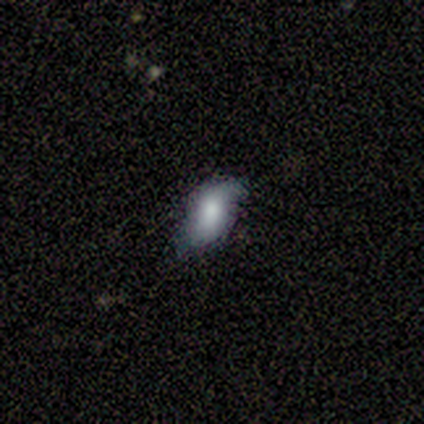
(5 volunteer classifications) Smooth or featured: smooth — 80% (featured or disk — 20%)
How rounded: in between — 100%
Merging: none — 60% (major disturbance — 40%)